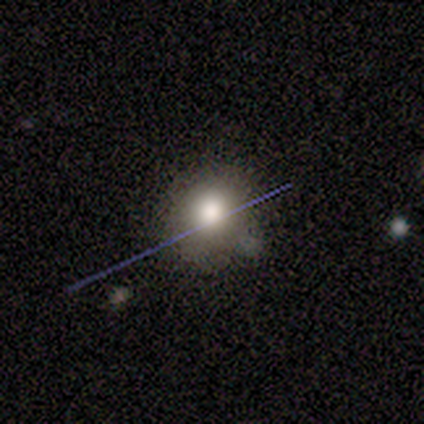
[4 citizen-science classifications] smooth 50% (tied), featured or disk 50% (tied), star or artifact 0%. Down the decision tree: how rounded — round (50%, tied with in between); merging — none (50%, tied with merger).